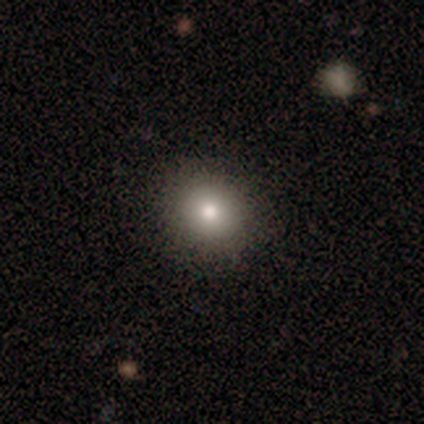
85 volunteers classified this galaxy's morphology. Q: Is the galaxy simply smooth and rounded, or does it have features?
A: smooth — 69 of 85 (81%).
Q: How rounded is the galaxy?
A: round — 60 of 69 (87%).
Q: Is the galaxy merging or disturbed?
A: none — 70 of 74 (95%).